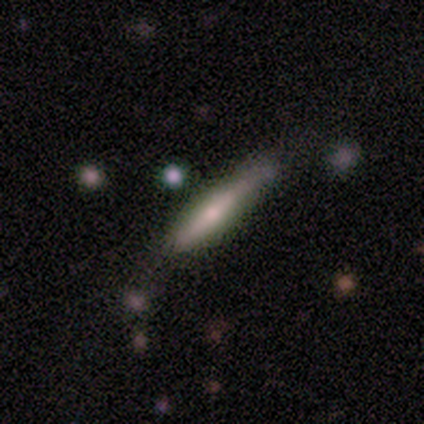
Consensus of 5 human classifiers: featured or disk 60%, smooth 40%, star or artifact 0%. Down the decision tree: edge-on disk — yes (67%); edge-on bulge — boxy (50%, tied with none); merging — minor disturbance (60%).